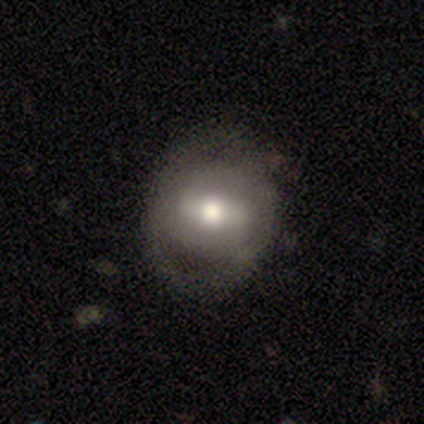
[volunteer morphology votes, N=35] Overall: featured or disk (60%; smooth 37%). Edge-on disk: no (100%). Bar: weak (52%; strong 24%). Spiral arms: no (57%; yes 43%). Bulge size: moderate (90%). Merging: none (56%; minor disturbance 32%).